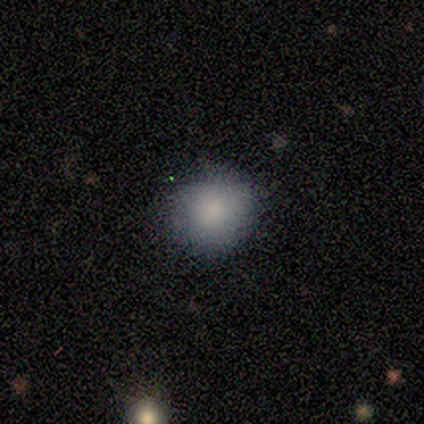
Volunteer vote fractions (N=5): Smooth or featured? smooth (100%)
How rounded? round (100%)
Merging? none (100%)